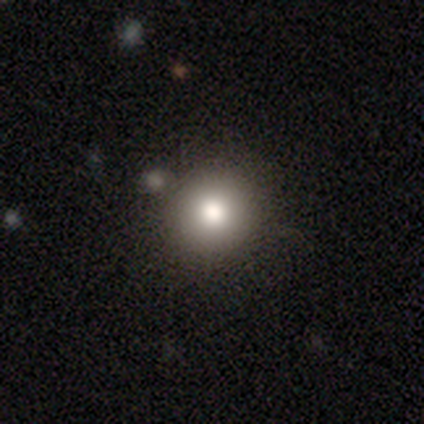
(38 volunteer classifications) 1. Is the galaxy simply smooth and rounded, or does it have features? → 87% smooth, 8% star or artifact, 5% featured or disk.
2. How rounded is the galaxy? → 97% round, 3% in between, 0% cigar-shaped.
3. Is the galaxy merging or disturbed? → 80% none, 11% minor disturbance, 9% merger, 0% major disturbance.